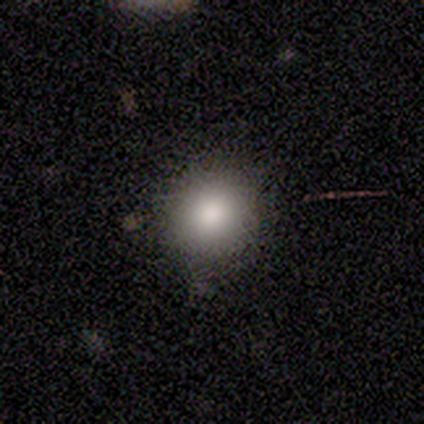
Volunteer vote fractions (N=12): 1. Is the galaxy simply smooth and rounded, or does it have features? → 83% smooth, 8% featured or disk, 8% star or artifact.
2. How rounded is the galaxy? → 100% round, 0% in between, 0% cigar-shaped.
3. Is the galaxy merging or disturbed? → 82% none, 18% minor disturbance, 0% major disturbance, 0% merger.